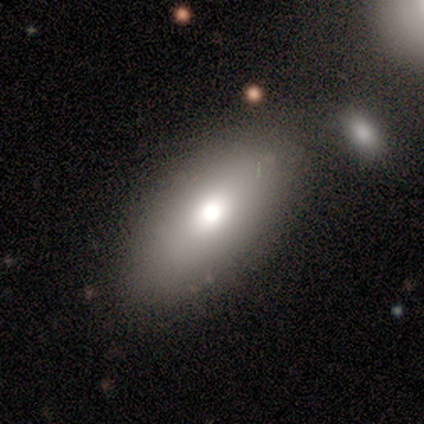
Smooth or featured? smooth (100%)
How rounded? in between (83%)
Merging? none (100%)